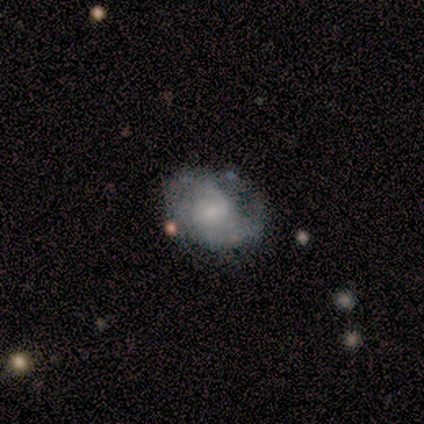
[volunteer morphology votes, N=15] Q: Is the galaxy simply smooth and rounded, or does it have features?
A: featured or disk — 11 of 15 (73%).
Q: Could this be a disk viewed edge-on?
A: no — 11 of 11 (100%).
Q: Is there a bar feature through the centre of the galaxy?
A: weak — 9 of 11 (82%).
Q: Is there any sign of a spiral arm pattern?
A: yes — 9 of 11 (82%).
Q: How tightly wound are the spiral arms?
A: tight — 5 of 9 (56%).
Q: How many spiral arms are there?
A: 2 — 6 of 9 (67%).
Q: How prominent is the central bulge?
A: small — 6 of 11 (55%).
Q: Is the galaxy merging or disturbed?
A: none — 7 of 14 (50%).